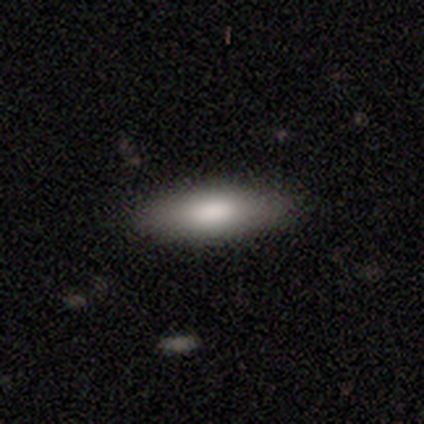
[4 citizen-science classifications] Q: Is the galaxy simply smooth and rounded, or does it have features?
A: smooth — 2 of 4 (50%).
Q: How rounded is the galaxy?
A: cigar-shaped — 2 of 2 (100%).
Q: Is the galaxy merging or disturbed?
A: none — 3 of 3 (100%).